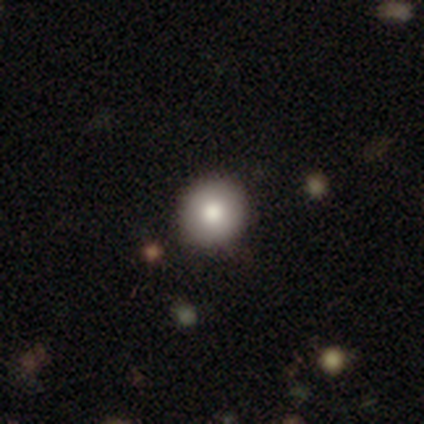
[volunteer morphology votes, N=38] Smooth or featured? 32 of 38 (84%) said smooth. How rounded? 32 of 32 (100%) said round. Merging? 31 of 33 (94%) said none.